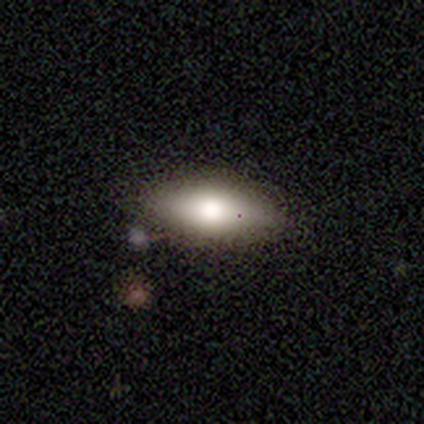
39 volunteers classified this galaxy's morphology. smooth-or-featured: smooth: 74% | featured or disk: 15% | star or artifact: 10%
  how-rounded: in between: 79% | cigar-shaped: 21% | round: 0%
  merging: none: 69% | minor disturbance: 23% | major disturbance: 6% | merger: 3%